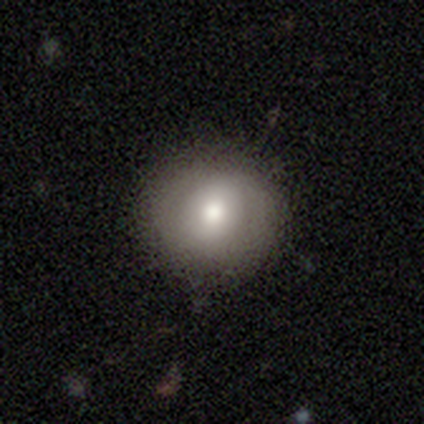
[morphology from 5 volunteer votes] Smooth or featured? featured or disk (60%)
Edge-on disk? no (100%)
Bar? no (100%)
Spiral arms? no (100%)
Bulge size? large (33%, tied with moderate and small)
Merging? none (100%)